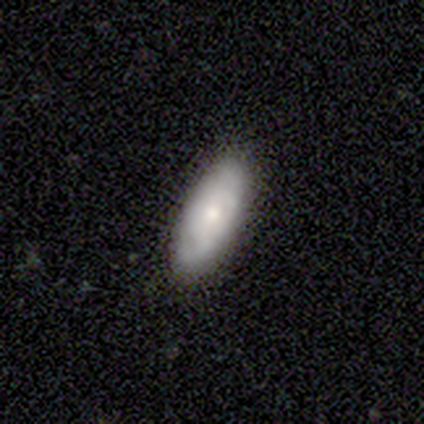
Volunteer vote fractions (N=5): Q: Smooth or featured?
A: smooth (100%)
Q: How rounded?
A: in between (100%)
Q: Merging?
A: none (100%)